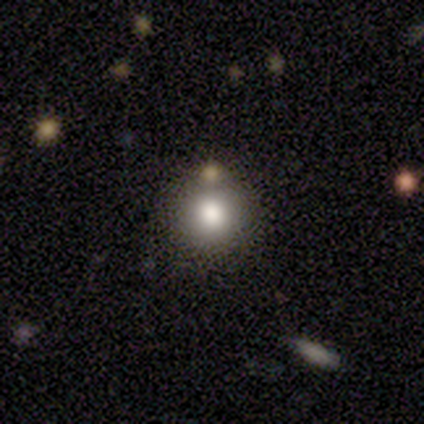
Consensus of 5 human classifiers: Smooth or featured?
  - smooth: 100% *
  - featured or disk: 0%
  - star or artifact: 0%
How rounded?
  - round: 100% *
  - in between: 0%
  - cigar-shaped: 0%
Merging?
  - none: 80% *
  - minor disturbance: 20%
  - major disturbance: 0%
  - merger: 0%